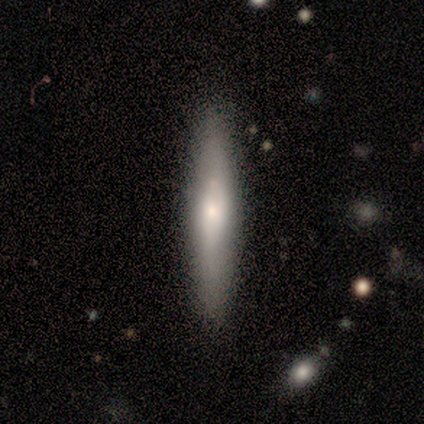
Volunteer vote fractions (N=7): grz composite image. It shows a featured or disk galaxy (71%) viewed edge-on (100%) with a rounded central bulge (100%). Merging: none (86%).